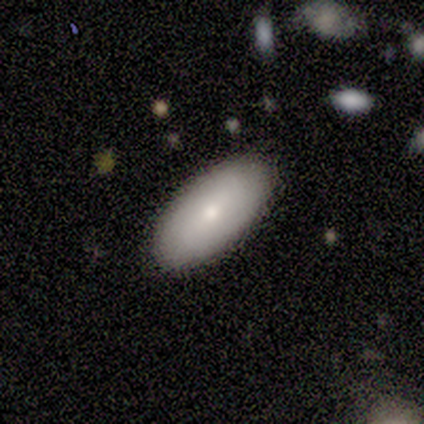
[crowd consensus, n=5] smooth_or_featured: smooth (p=1.00)
how_rounded: in between (p=1.00)
merging: none (p=1.00)